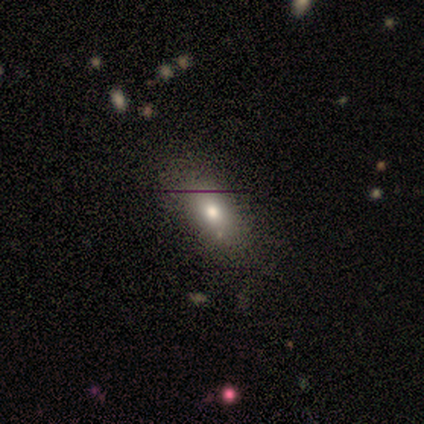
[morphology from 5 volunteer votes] type=star or artifact (60%).